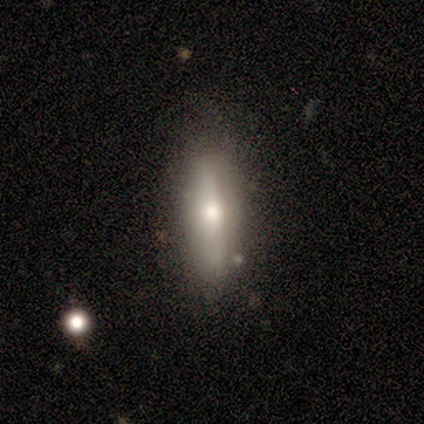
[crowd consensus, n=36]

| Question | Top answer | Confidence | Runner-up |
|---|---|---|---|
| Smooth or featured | smooth | 64% | featured or disk (31%) |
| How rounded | in between | 61% | cigar-shaped (35%) |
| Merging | none | 79% | minor disturbance (15%) |